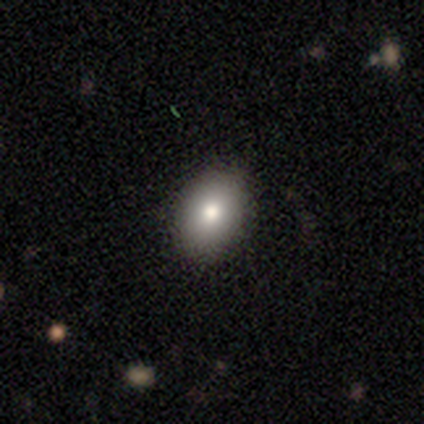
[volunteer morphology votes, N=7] Overall: smooth (86%). How rounded: in between (67%; round 33%). Merging: none (100%).